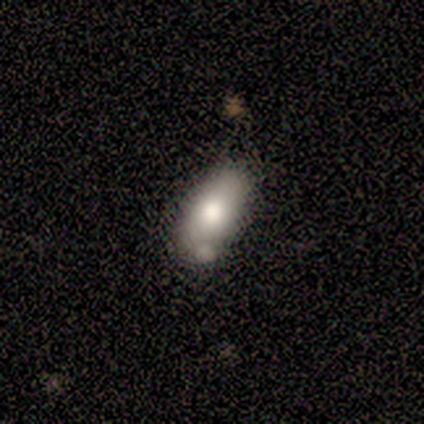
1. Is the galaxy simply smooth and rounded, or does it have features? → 75% smooth, 25% featured or disk, 0% star or artifact.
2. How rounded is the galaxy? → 100% in between, 0% round, 0% cigar-shaped.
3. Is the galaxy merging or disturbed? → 50% none (tied), 50% minor disturbance (tied), 0% major disturbance, 0% merger.